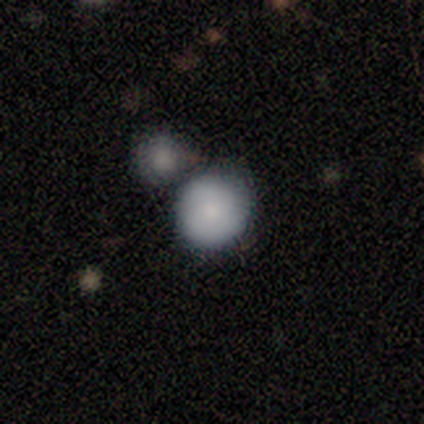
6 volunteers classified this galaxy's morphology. This appears to be a smooth galaxy with no disk features (83%) that is round (100%). Merging: none (100%).